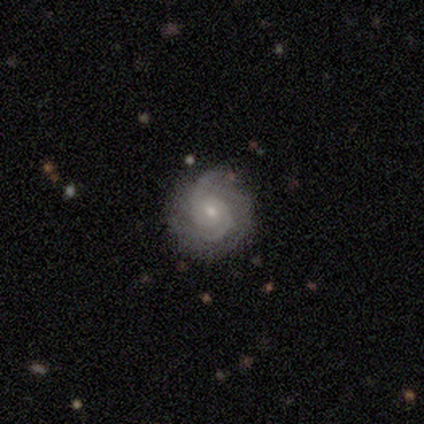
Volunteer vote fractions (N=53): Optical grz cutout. It shows a featured or disk galaxy (79%) with no bar (62%), 2 (54%) tight (46%, tied with medium) spiral arms (98%) and a small central bulge (62%). Merging: none (78%).